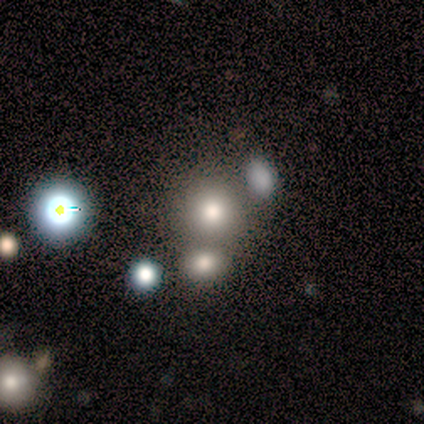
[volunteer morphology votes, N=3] smooth-or-featured: smooth: 67% | star or artifact: 33% | featured or disk: 0%
  how-rounded: round: 50% (tied) | in between: 50% (tied) | cigar-shaped: 0%
  merging: none: 100% | minor disturbance: 0% | major disturbance: 0% | merger: 0%